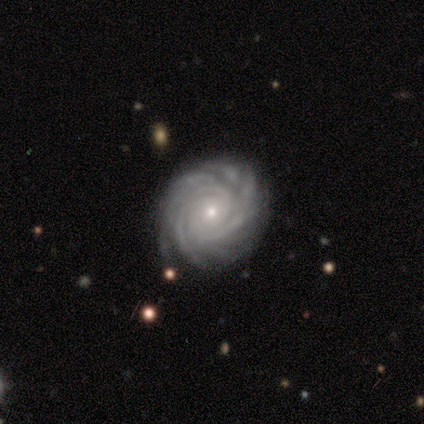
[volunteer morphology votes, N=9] type=featured or disk (100%); edge-on=no (89%); bar=no (88%); spiral arms=yes (100%); winding=tight (100%); arm count=can't tell (50%); bulge=small (88%); merging=none (89%).